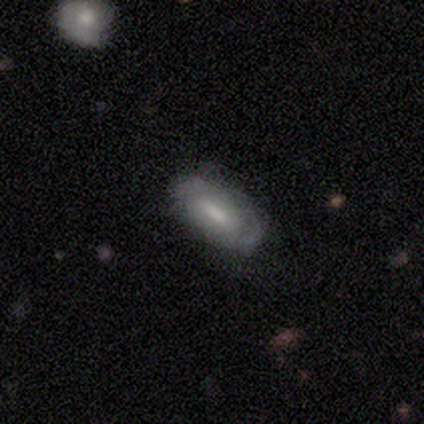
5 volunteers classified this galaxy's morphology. Volunteers were most divided on "spiral winding" (2-way tie): tight: 50%, medium: 50%, loose: 0%; "spiral arm count" (2-way tie): 2: 50%, 3: 50%, 1: 0%, 4: 0%, more than 4: 0%, can't tell: 0%. More confident: edge-on disk — no (100%); bar — weak (100%); spiral arms — yes (67%); bulge size — moderate (67%); smooth or featured — featured or disk (60%); merging — none (60%).